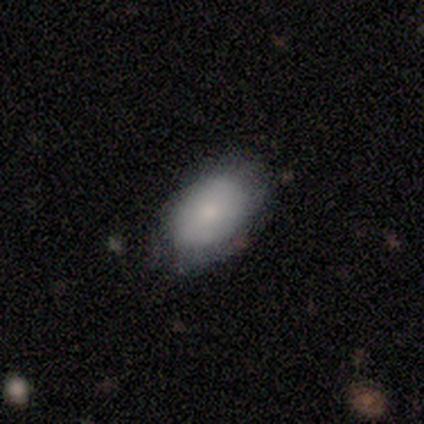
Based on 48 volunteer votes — smooth-or-featured: smooth: 71% | featured or disk: 23% | star or artifact: 6%
  how-rounded: in between: 91% | round: 9% | cigar-shaped: 0%
  merging: none: 58% | minor disturbance: 42% | major disturbance: 0% | merger: 0%